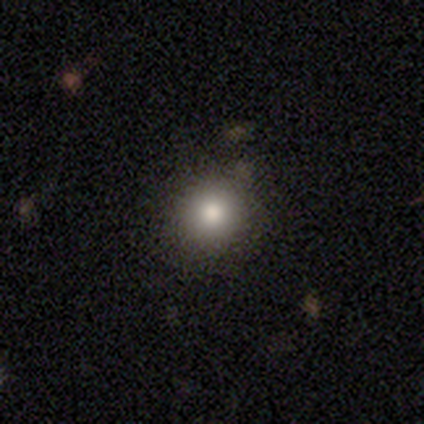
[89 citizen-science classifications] Overall: smooth (75%). How rounded: round (90%). Merging: none (87%).